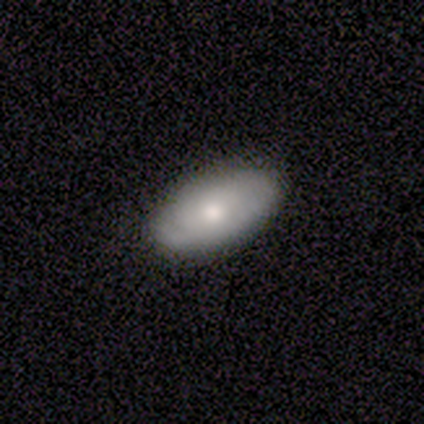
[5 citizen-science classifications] Q: Smooth or featured?
A: smooth (60%); runner-up: featured or disk (40%)
Q: How rounded?
A: in between (100%)
Q: Merging?
A: none (80%); runner-up: minor disturbance (20%)